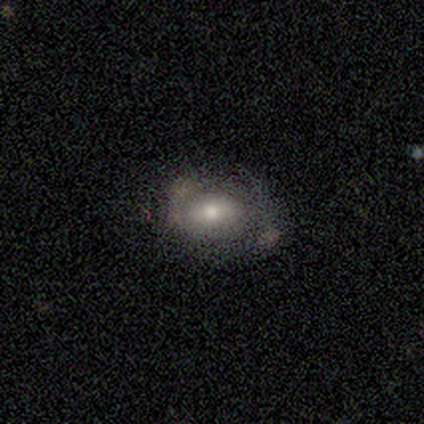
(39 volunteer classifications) Morphology: type=smooth (56%); roundness=in between (86%); merging=none (50%).